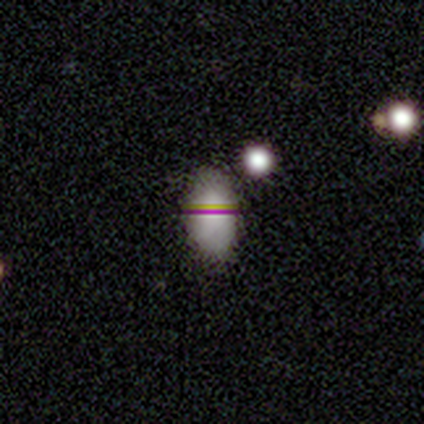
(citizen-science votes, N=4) Smooth or featured?
  - featured or disk: 75% *
  - smooth: 25%
  - star or artifact: 0%
Edge-on disk?
  - no: 67% *
  - yes: 33%
Bar?
  - weak: 100% *
  - strong: 0%
  - no: 0%
Spiral arms?
  - no: 100% *
  - yes: 0%
Bulge size?
  - moderate: 50% * (tied)
  - none: 50% * (tied)
  - dominant: 0%
  - large: 0%
  - small: 0%
Merging?
  - none: 75% *
  - minor disturbance: 25%
  - major disturbance: 0%
  - merger: 0%